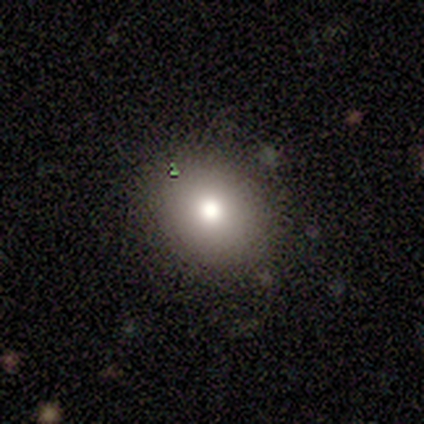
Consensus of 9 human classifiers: smooth-or-featured: smooth: 100% | featured or disk: 0% | star or artifact: 0%
  how-rounded: round: 56% | in between: 44% | cigar-shaped: 0%
  merging: none: 89% | minor disturbance: 11% | major disturbance: 0% | merger: 0%